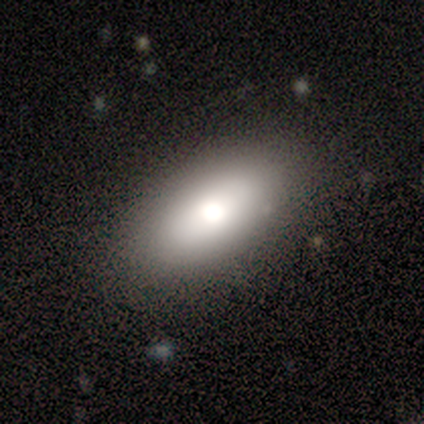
Morphology: type=smooth (86%); roundness=in between (100%); merging=none (71%).